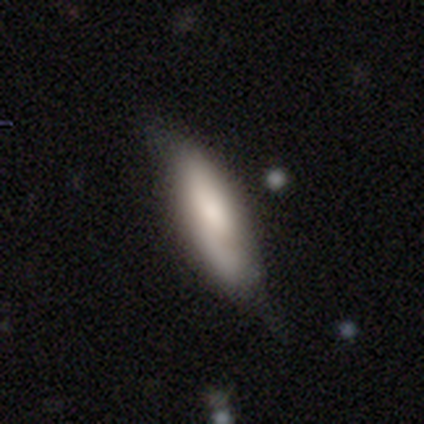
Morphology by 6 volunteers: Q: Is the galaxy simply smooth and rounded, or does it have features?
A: smooth — 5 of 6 (83%).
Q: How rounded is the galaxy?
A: in between — 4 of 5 (80%).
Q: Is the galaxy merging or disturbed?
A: minor disturbance — 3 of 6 (50%).